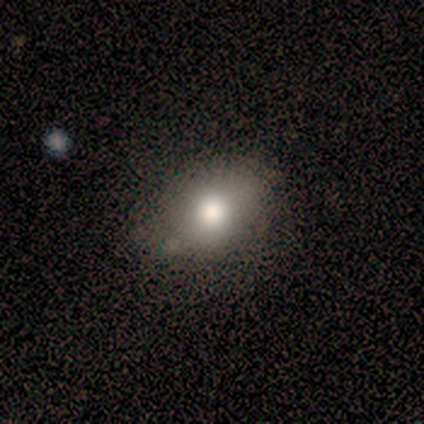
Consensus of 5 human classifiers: Q: Smooth or featured?
A: smooth (80%); runner-up: star or artifact (20%)
Q: How rounded?
A: in between (75%); runner-up: cigar-shaped (25%)
Q: Merging?
A: none (75%); runner-up: minor disturbance (25%)